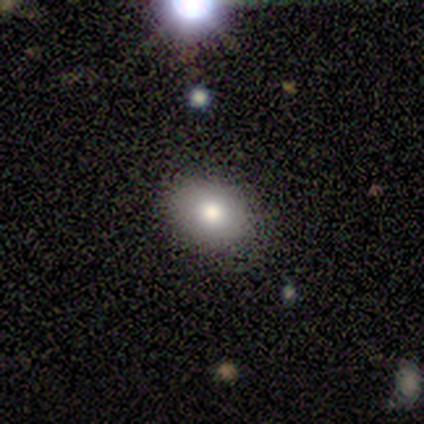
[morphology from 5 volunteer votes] A smooth galaxy with no disk features (80%) that is in between round and cigar-shaped (75%).

Vote fractions:
- Smooth or featured? smooth: 80% / featured or disk: 20% / star or artifact: 0%
- How rounded? in between: 75% / round: 25% / cigar-shaped: 0%
- Merging? none: 40% (tied) / minor disturbance: 40% (tied) / major disturbance: 20% / merger: 0%